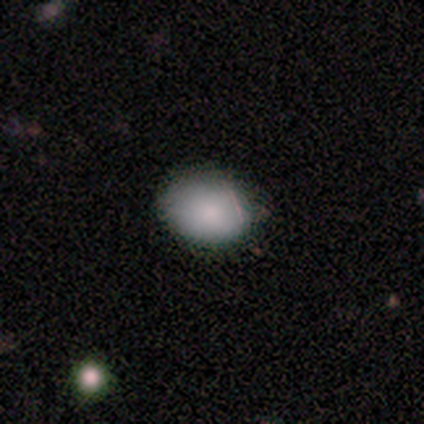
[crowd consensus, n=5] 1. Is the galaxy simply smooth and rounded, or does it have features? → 80% smooth, 20% featured or disk, 0% star or artifact.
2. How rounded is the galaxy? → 75% in between, 25% round, 0% cigar-shaped.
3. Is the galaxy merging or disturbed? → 80% none, 20% minor disturbance, 0% major disturbance, 0% merger.